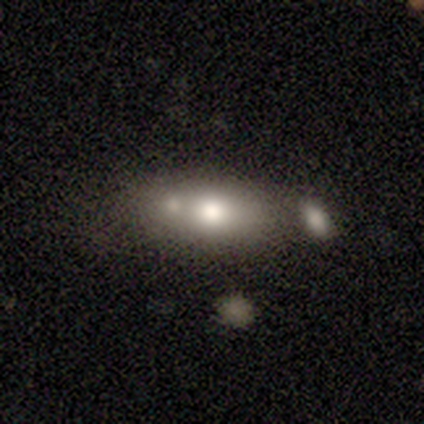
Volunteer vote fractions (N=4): Q: Smooth or featured?
A: smooth (50%); runner-up: featured or disk (25%)
Q: How rounded?
A: round (50%); tied with: cigar-shaped (50%)
Q: Merging?
A: merger (67%); runner-up: none (33%)